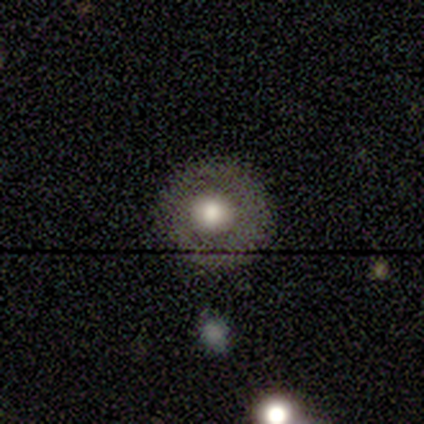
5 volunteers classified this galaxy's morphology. A featured or disk galaxy (60%) with no bar (100%), no spiral arms (100%) and a large central bulge (67%). Merging: none (100%).